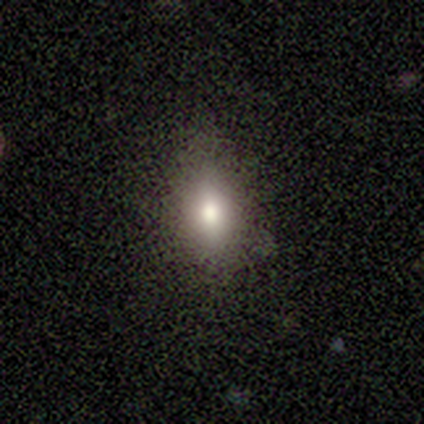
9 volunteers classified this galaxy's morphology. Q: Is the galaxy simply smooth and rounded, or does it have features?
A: star or artifact — 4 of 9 (44%).